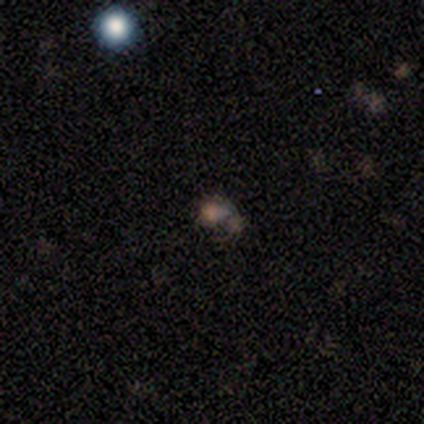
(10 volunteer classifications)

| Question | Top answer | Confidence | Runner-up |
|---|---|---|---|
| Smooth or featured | smooth | 80% | star or artifact (20%) |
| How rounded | round | 50% | tied: in between (50%) |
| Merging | none | 50% | major disturbance (25%) |